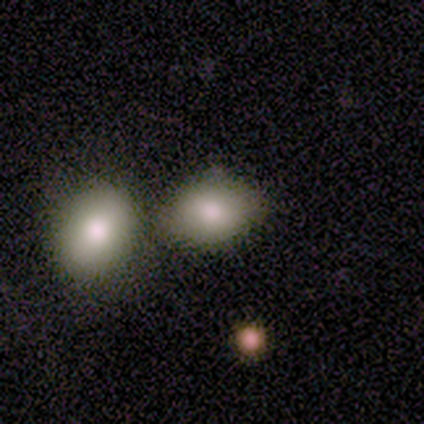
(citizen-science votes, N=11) Morphology: type=smooth (91%); roundness=in between (60%); merging=none (70%).